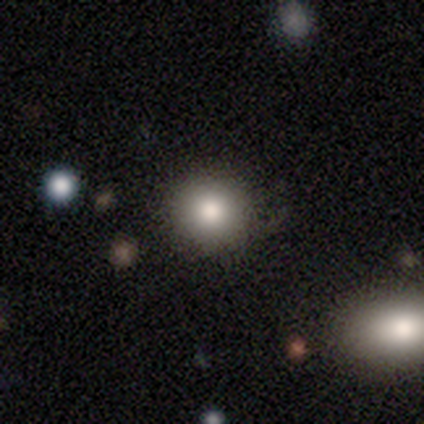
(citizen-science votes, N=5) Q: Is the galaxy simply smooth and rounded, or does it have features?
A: smooth — 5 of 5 (100%).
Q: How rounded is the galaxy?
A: round — 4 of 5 (80%).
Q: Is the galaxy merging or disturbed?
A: none — 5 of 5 (100%).